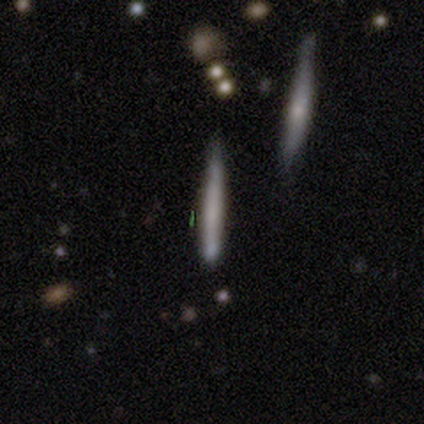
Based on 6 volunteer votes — Q: Smooth or featured?
A: smooth (50%); tied with: featured or disk (50%)
Q: How rounded?
A: cigar-shaped (100%)
Q: Merging?
A: none (100%)